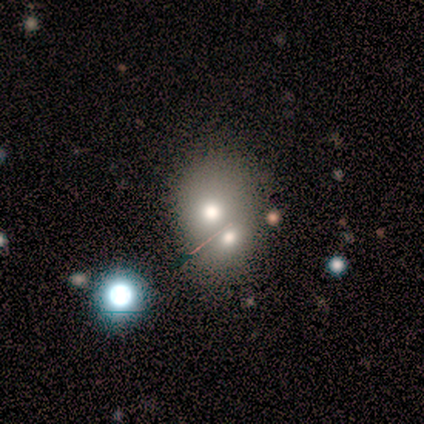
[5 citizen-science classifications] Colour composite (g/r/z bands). It shows a smooth galaxy with no disk features (60%) that is in between round and cigar-shaped (67%). Merging: merger (100%).